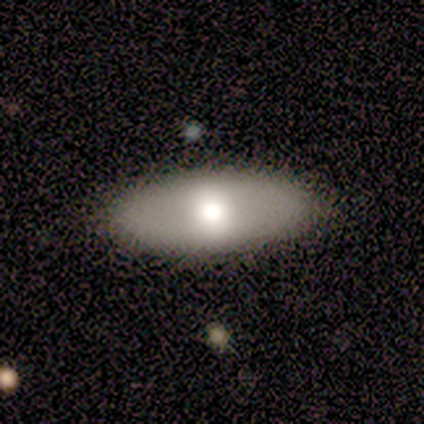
smooth_or_featured: smooth (p=0.72) [alt: star or artifact p=0.15]
how_rounded: in between (p=0.76) [alt: cigar-shaped p=0.17]
merging: none (p=0.85) [alt: minor disturbance p=0.09]